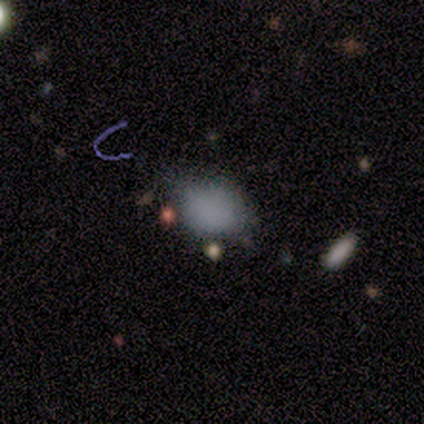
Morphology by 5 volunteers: A smooth galaxy with no disk features (80%) that is in between round and cigar-shaped (100%). Merging: none (50%).